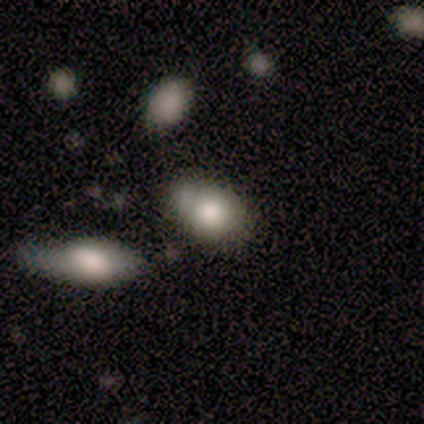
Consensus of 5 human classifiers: Smooth or featured: smooth — 100%
How rounded: in between — 60% (round — 40%)
Merging: none — 40% (tied with minor disturbance — 40%)